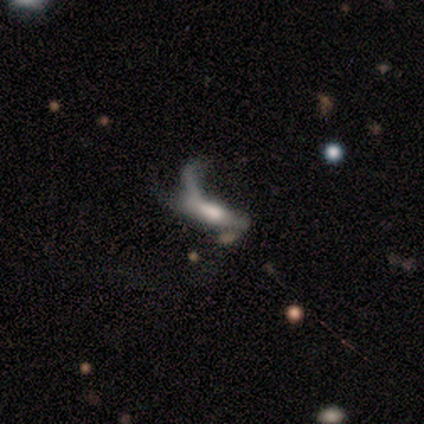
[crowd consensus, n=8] This appears to be a featured or disk galaxy (62%) with a weak bar (100%), 1 (50%, tied with 3) loose (100%) spiral arms (67%) and a moderate central bulge (67%). Merging: major disturbance (62%).